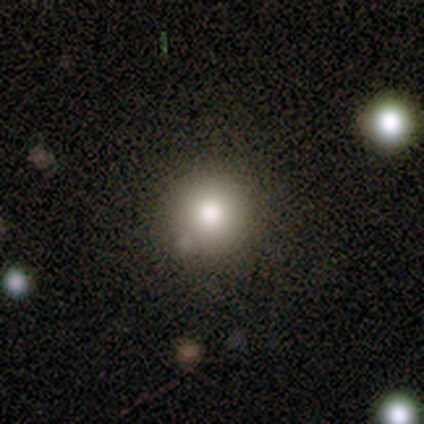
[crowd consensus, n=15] Smooth or featured? 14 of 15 (93%) said smooth. How rounded? 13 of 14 (93%) said round. Merging? 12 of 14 (86%) said none.